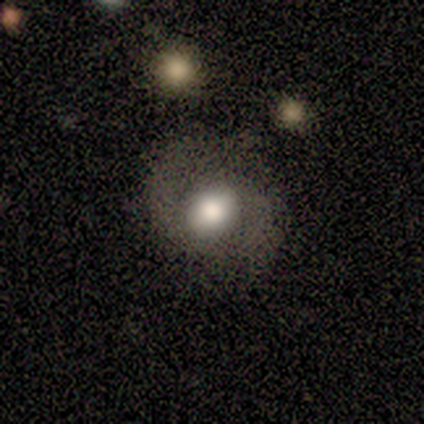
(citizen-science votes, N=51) smooth_or_featured: smooth (p=0.57) [alt: featured or disk p=0.31]
how_rounded: round (p=0.72) [alt: in between p=0.28]
merging: none (p=0.73) [alt: minor disturbance p=0.16]